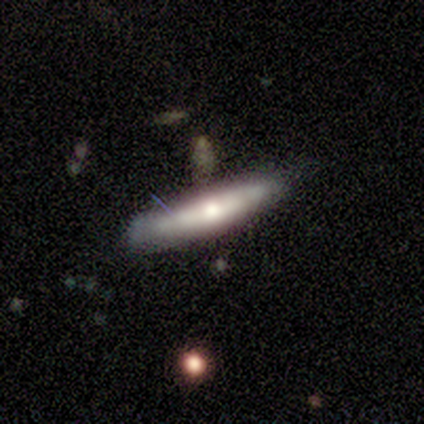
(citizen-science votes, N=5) smooth 60%, featured or disk 40%, star or artifact 0%. Down the decision tree: how rounded — cigar-shaped (67%); merging — none (80%).